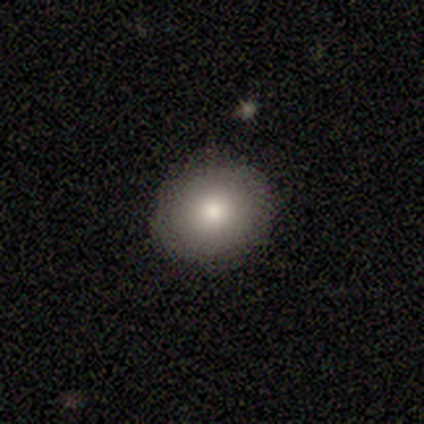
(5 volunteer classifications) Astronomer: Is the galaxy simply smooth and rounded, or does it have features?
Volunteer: smooth — 100%.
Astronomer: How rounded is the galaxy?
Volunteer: round — 80%.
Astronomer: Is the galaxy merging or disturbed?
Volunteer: none — 100%.